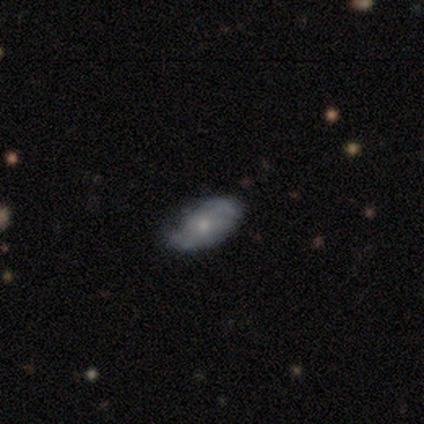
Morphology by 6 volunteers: Q: Smooth or featured?
A: featured or disk (67%); runner-up: smooth (33%)
Q: Edge-on disk?
A: no (100%)
Q: Bar?
A: no (75%); runner-up: weak (25%)
Q: Spiral arms?
A: yes (50%); tied with: no (50%)
Q: Spiral winding?
A: medium (100%)
Q: Spiral arm count?
A: 2 (50%); tied with: can't tell (50%)
Q: Bulge size?
A: moderate (50%); tied with: small (50%)
Q: Merging?
A: none (67%); runner-up: minor disturbance (17%)